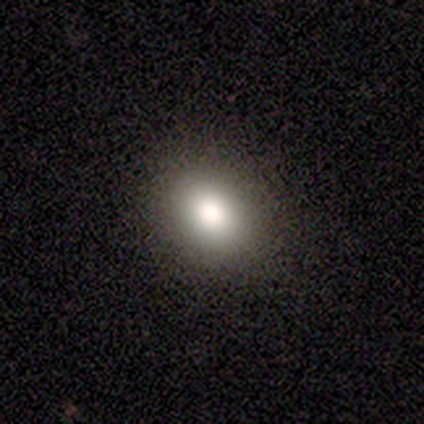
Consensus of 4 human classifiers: Smooth or featured?
  - smooth: 75% *
  - star or artifact: 25%
  - featured or disk: 0%
How rounded?
  - in between: 67% *
  - round: 33%
  - cigar-shaped: 0%
Merging?
  - none: 100% *
  - minor disturbance: 0%
  - major disturbance: 0%
  - merger: 0%